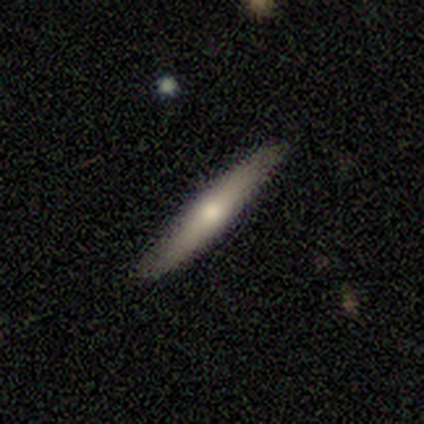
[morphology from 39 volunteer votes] Volunteers were most divided on "smooth or featured": smooth: 54%, featured or disk: 44%, star or artifact: 3%. More confident: how rounded — cigar-shaped (95%); merging — none (82%).